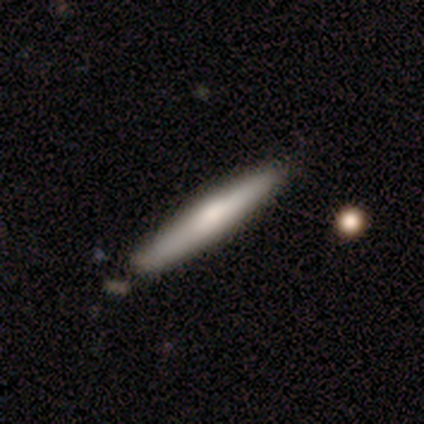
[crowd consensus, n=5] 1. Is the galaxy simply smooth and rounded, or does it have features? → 60% featured or disk, 40% smooth, 0% star or artifact.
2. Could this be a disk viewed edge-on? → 100% yes, 0% no.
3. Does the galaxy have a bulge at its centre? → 67% none, 33% rounded, 0% boxy.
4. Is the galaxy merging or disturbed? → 80% none, 20% minor disturbance, 0% major disturbance, 0% merger.